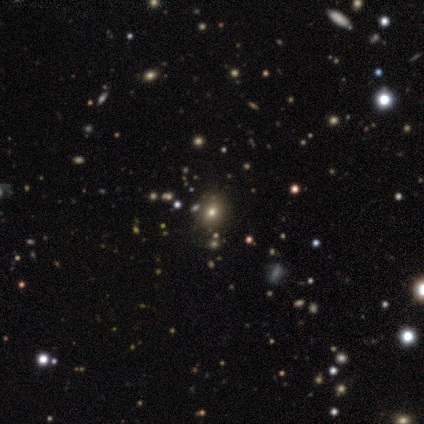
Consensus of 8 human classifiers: smooth_or_featured: star or artifact (p=0.50) [alt: smooth p=0.25]